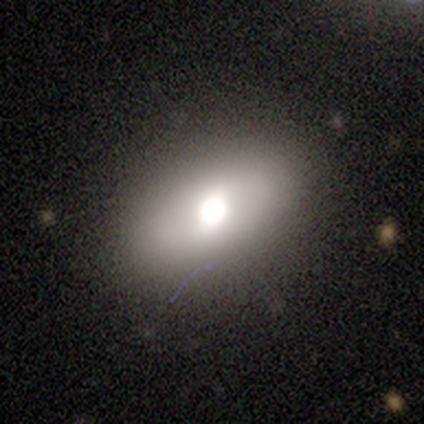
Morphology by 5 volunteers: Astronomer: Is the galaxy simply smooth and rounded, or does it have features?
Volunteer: featured or disk — 60% (runner-up: smooth, 40%).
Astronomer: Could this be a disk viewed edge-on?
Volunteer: no — 100%.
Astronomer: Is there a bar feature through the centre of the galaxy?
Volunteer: no — 100%.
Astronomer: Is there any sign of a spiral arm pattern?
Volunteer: no — 100%.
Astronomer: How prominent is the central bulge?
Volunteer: moderate — 67%.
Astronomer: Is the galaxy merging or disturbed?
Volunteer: none — 80%.